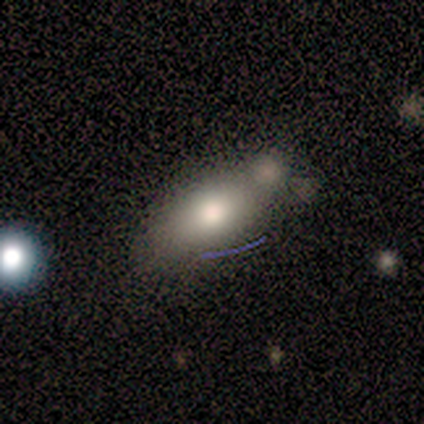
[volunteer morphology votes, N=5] A smooth galaxy with no disk features (40%, tied with featured or disk) that is round (50%, tied with in between).

Vote fractions:
- Smooth or featured? smooth: 40% (tied) / featured or disk: 40% (tied) / star or artifact: 20%
- How rounded? round: 50% (tied) / in between: 50% (tied) / cigar-shaped: 0%
- Merging? none: 50% / minor disturbance: 25% / merger: 25% / major disturbance: 0%